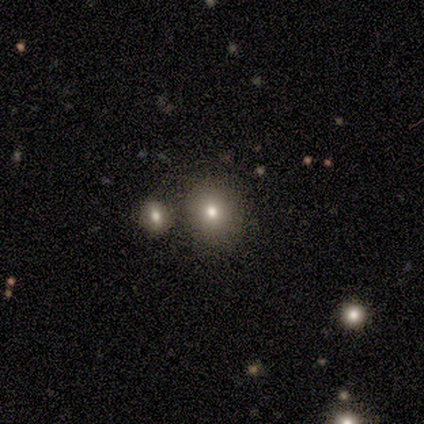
smooth_or_featured: smooth (p=1.00)
how_rounded: round (p=0.80) [alt: in between p=0.20]
merging: none (p=0.60) [alt: merger p=0.40]